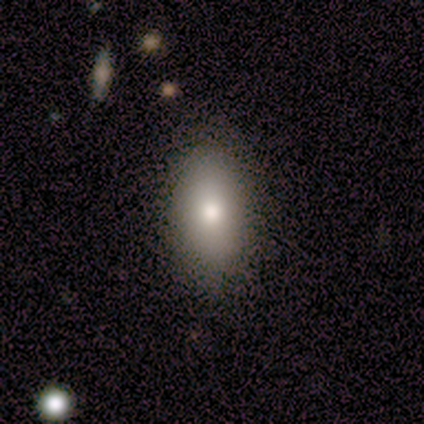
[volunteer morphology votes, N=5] Smooth or featured?
  - smooth: 80% *
  - featured or disk: 20%
  - star or artifact: 0%
How rounded?
  - in between: 100% *
  - round: 0%
  - cigar-shaped: 0%
Merging?
  - none: 100% *
  - minor disturbance: 0%
  - major disturbance: 0%
  - merger: 0%